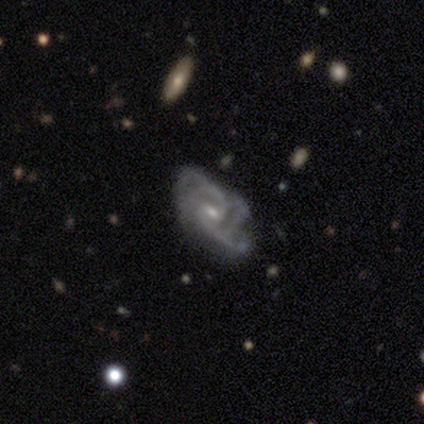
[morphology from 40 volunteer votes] Smooth or featured: featured or disk — 92% (smooth — 5%)
Edge-on disk: no — 97% (yes — 3%)
Bar: weak — 67% (no — 28%)
Spiral arms: yes — 97% (no — 3%)
Spiral winding: medium — 57% (tight — 29%)
Spiral arm count: 2 — 37% (3 — 29%)
Bulge size: small — 75% (moderate — 19%)
Merging: none — 59% (major disturbance — 23%)